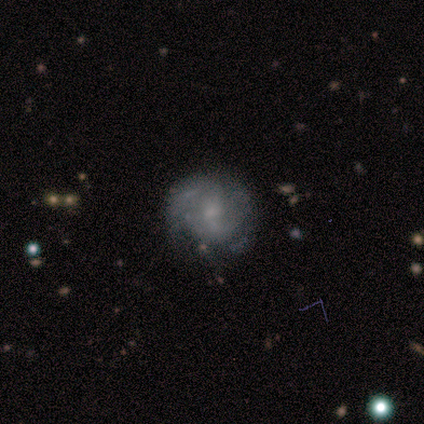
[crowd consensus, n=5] smooth-or-featured: smooth: 40% (tied) | featured or disk: 40% (tied) | star or artifact: 20%
  how-rounded: round: 100% | in between: 0% | cigar-shaped: 0%
  merging: none: 75% | major disturbance: 25% | minor disturbance: 0% | merger: 0%